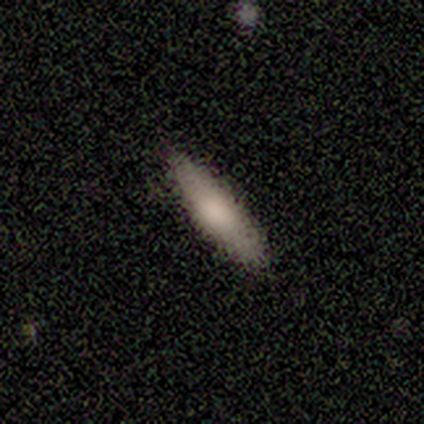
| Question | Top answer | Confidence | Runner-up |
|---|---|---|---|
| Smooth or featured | smooth | 75% | featured or disk (25%) |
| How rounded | in between | 67% | cigar-shaped (33%) |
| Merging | none | 100% | — |